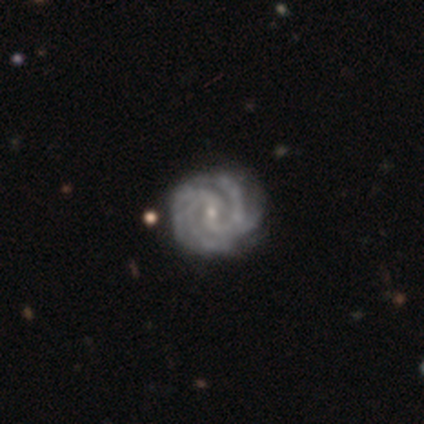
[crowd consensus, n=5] Smooth or featured? 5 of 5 (100%) said featured or disk. Edge-on disk? 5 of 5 (100%) said no. Bar? 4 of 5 (80%) said no. Spiral arms? 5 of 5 (100%) said yes. Spiral winding? 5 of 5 (100%) said medium. Spiral arm count? 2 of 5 (40%, tied with 4) said 2. Bulge size? 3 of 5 (60%) said small. Merging? 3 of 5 (60%) said none.